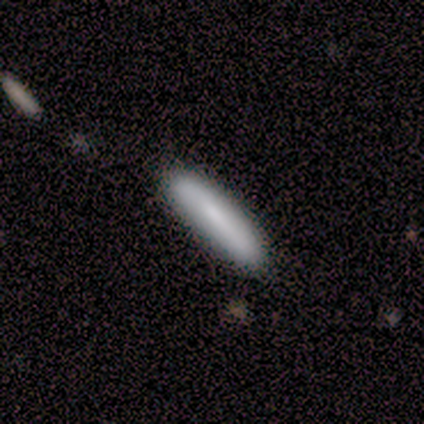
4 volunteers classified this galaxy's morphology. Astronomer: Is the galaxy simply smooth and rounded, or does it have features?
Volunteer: smooth — 50%, tied with featured or disk at 50%.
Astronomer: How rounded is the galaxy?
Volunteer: cigar-shaped — 100%.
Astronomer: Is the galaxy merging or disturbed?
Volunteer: none — 100%.